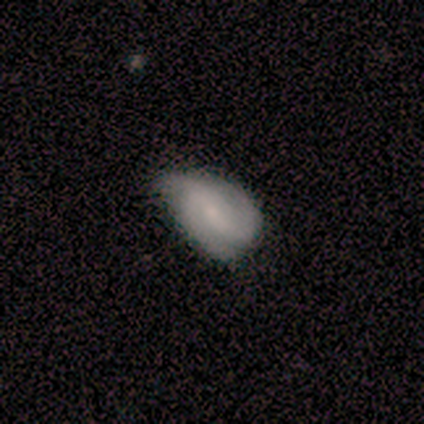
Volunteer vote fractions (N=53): Morphology: type=featured or disk (55%); edge-on=no (100%); bar=weak (48%); spiral arms=yes (93%); winding=medium (44%); arm count=2 (48%); bulge=small (66%); merging=minor disturbance (48%).